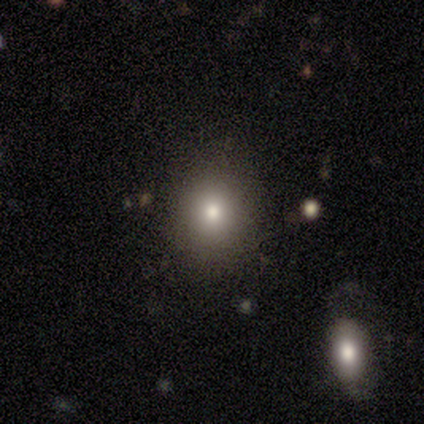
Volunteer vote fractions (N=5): Smooth or featured?
  - smooth: 80% *
  - star or artifact: 20%
  - featured or disk: 0%
How rounded?
  - round: 75% *
  - in between: 25%
  - cigar-shaped: 0%
Merging?
  - none: 75% *
  - minor disturbance: 25%
  - major disturbance: 0%
  - merger: 0%